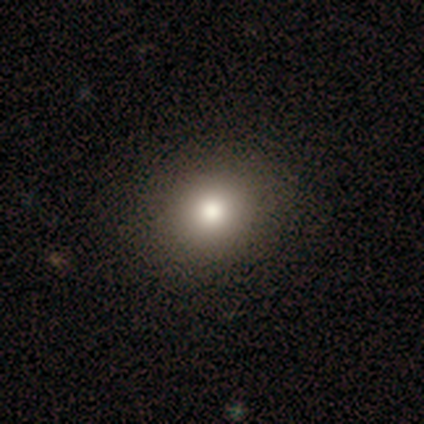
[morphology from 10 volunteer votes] A star or artifact, not a galaxy (50%).

Vote fractions:
- Smooth or featured? star or artifact: 50% / smooth: 30% / featured or disk: 20%